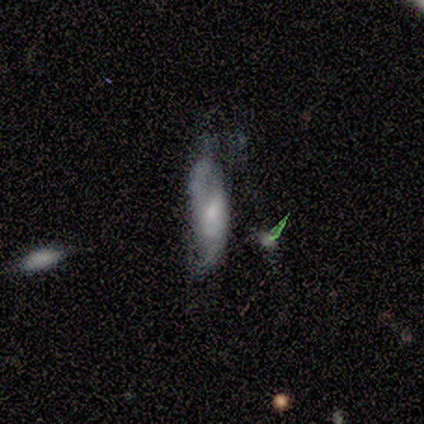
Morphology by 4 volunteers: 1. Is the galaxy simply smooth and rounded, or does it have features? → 100% featured or disk, 0% smooth, 0% star or artifact.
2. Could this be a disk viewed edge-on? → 50% yes (tied), 50% no (tied).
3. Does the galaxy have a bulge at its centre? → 100% rounded, 0% boxy, 0% none.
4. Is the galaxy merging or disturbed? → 50% none (tied), 50% minor disturbance (tied), 0% major disturbance, 0% merger.